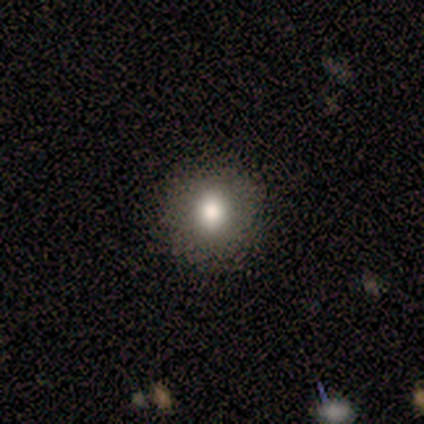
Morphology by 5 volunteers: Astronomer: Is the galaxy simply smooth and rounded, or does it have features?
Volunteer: smooth — 100%.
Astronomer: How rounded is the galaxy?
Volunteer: round — 60% (runner-up: in between, 40%).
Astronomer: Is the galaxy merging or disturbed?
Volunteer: none — 100%.